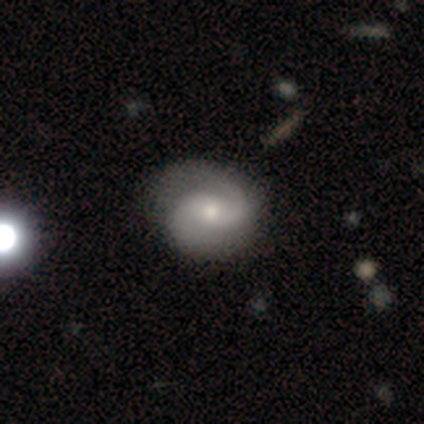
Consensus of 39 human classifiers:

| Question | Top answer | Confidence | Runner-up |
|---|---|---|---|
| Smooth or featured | featured or disk | 87% | smooth (13%) |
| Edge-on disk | no | 100% | — |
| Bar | no | 59% | weak (29%) |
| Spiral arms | yes | 97% | no (3%) |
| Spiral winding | medium | 61% | tight (21%) |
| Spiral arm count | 2 | 100% | — |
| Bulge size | moderate | 56% | small (38%) |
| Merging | none | 62% | minor disturbance (5%) |